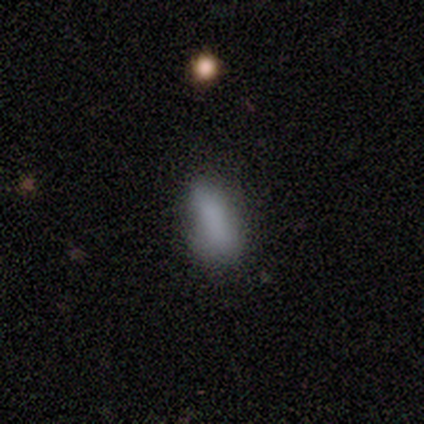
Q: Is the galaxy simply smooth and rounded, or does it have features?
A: smooth — 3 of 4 (75%).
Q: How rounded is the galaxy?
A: in between — 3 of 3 (100%).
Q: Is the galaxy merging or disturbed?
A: none — 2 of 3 (67%).